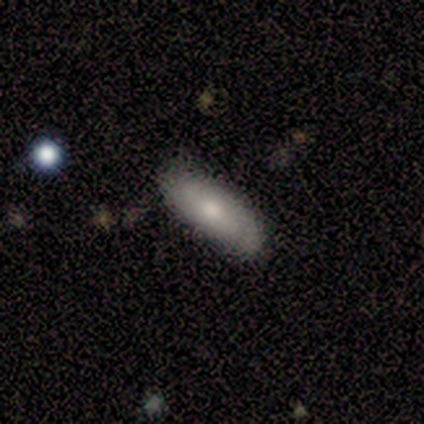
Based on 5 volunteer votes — This appears to be a smooth galaxy with no disk features (100%) that is cigar-shaped (60%). Merging: none (100%).